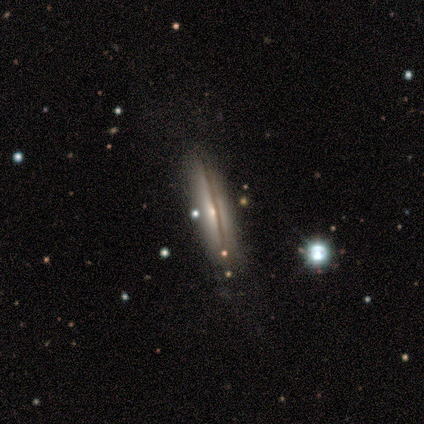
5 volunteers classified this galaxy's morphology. Q: Smooth or featured?
A: featured or disk (60%); runner-up: smooth (20%)
Q: Edge-on disk?
A: yes (100%)
Q: Edge-on bulge?
A: rounded (67%); runner-up: none (33%)
Q: Merging?
A: none (100%)